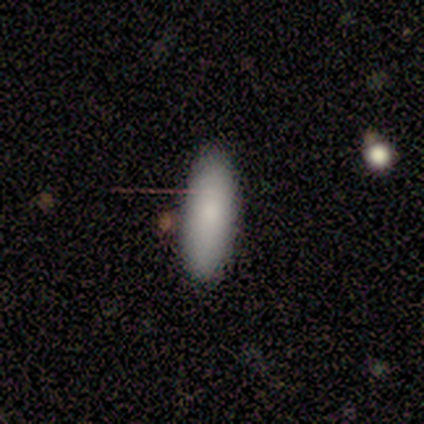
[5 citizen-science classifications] Morphology: type=smooth (60%); roundness=in between (100%); merging=none (80%).